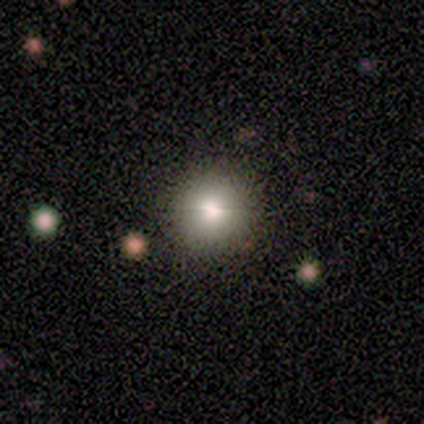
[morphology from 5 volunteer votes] A smooth galaxy with no disk features (40%, tied with star or artifact) that is round (100%).

Vote fractions:
- Smooth or featured? smooth: 40% (tied) / star or artifact: 40% (tied) / featured or disk: 20%
- How rounded? round: 100% / in between: 0% / cigar-shaped: 0%
- Merging? none: 67% / minor disturbance: 33% / major disturbance: 0% / merger: 0%